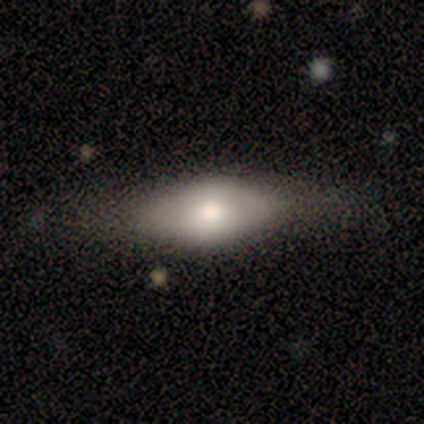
Volunteers were most divided on "smooth or featured": featured or disk: 60%, smooth: 40%, star or artifact: 0%. More confident: edge-on disk — no (100%); merging — none (100%); bar — no (67%); spiral arms — no (67%); bulge size — moderate (67%).